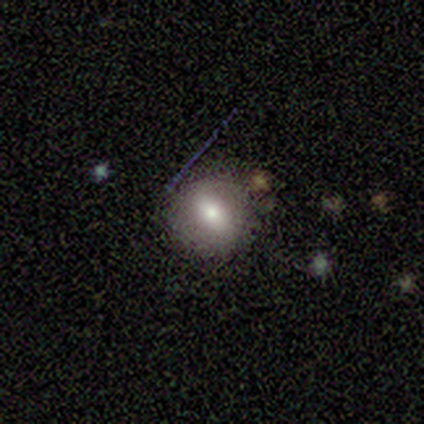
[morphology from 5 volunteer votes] Smooth or featured: smooth — 80% (featured or disk — 20%)
How rounded: round — 100%
Merging: none — 100%